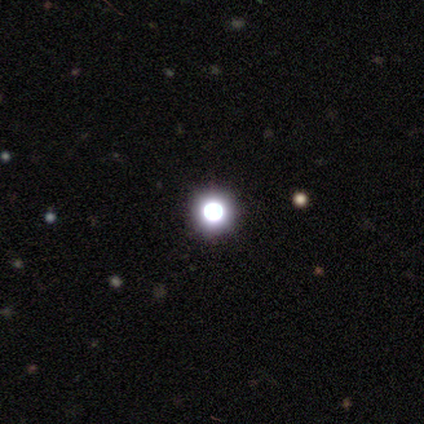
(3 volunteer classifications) smooth-or-featured: star or artifact: 67% | smooth: 33% | featured or disk: 0%